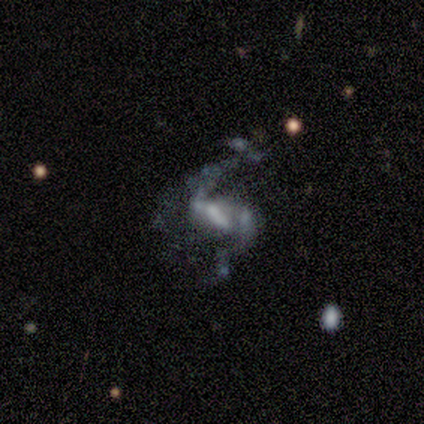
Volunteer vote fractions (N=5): Overall: featured or disk (100%). Edge-on disk: no (100%). Bar: weak (60%; strong 20%). Spiral arms: yes (100%). Spiral arm count: 2 (80%). Spiral winding: loose (80%). Bulge size: small (40%; large 20%). Merging: none (40%, tied with major disturbance).